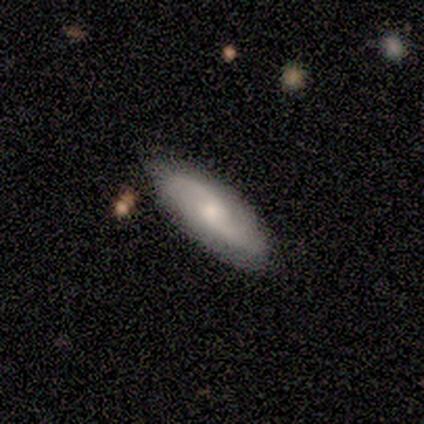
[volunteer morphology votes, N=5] A featured or disk galaxy (100%) with a weak bar (100%), 2 (100%) loose (67%) spiral arms (75%) and a small central bulge (75%). Merging: none (100%).